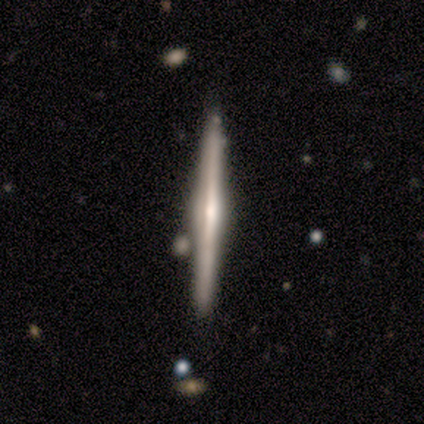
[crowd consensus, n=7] Smooth or featured: featured or disk — 57% (smooth — 29%)
Edge-on disk: yes — 100%
Edge-on bulge: none — 50% (tied with rounded — 50%)
Merging: none — 83% (minor disturbance — 17%)